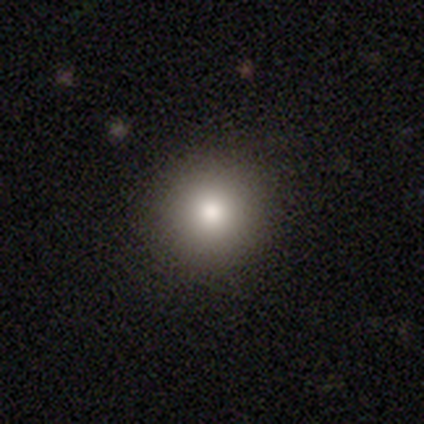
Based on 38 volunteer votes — Overall: smooth (66%). How rounded: round (96%). Merging: none (97%).